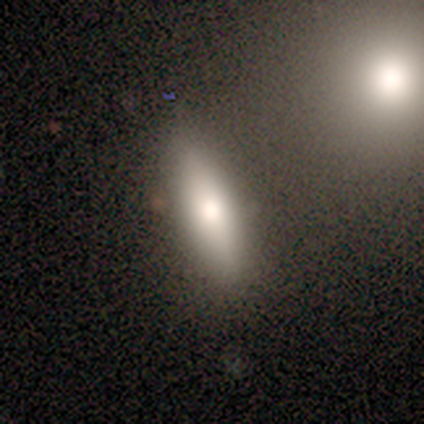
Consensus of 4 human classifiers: A smooth galaxy with no disk features (100%) that is in between round and cigar-shaped (50%, tied with cigar-shaped).

Vote fractions:
- Smooth or featured? smooth: 100% / featured or disk: 0% / star or artifact: 0%
- How rounded? in between: 50% (tied) / cigar-shaped: 50% (tied) / round: 0%
- Merging? none: 75% / merger: 25% / minor disturbance: 0% / major disturbance: 0%